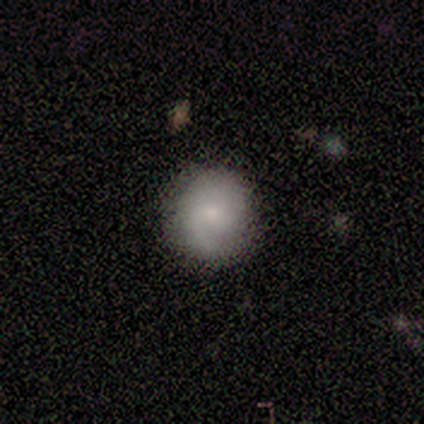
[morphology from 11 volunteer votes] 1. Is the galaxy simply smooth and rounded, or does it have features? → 64% featured or disk, 36% smooth, 0% star or artifact.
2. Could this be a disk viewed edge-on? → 100% no, 0% yes.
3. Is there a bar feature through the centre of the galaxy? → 86% no, 14% weak, 0% strong.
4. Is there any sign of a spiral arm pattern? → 86% yes, 14% no.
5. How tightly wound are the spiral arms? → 67% tight, 17% medium, 17% loose.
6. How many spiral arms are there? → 50% 1, 33% can't tell, 17% 2, 0% 3, 0% 4, 0% more than 4.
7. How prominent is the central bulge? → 43% moderate (tied), 43% small (tied), 14% none, 0% dominant, 0% large.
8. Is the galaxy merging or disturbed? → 91% none, 9% minor disturbance, 0% major disturbance, 0% merger.